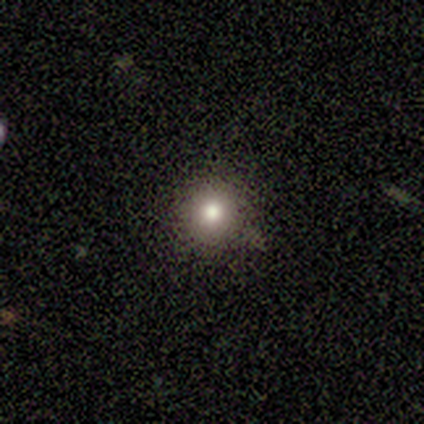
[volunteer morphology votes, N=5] Smooth or featured: smooth — 60% (star or artifact — 40%)
How rounded: round — 100%
Merging: none — 100%